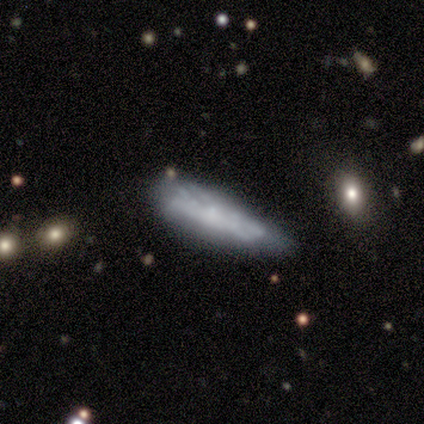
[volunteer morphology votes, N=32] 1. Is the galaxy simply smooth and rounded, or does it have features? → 50% smooth, 41% featured or disk, 9% star or artifact.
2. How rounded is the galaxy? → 62% cigar-shaped, 31% in between, 6% round.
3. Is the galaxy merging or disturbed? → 52% minor disturbance, 38% none, 7% major disturbance, 3% merger.